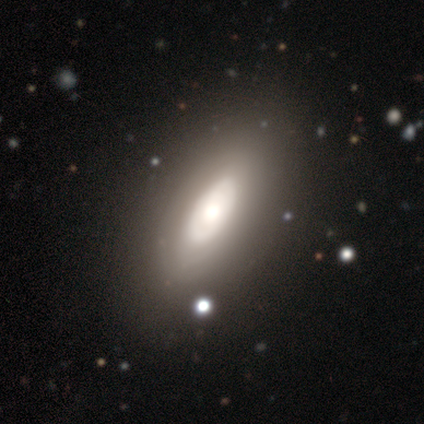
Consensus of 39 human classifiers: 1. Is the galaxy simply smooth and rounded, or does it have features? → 49% featured or disk, 46% smooth, 5% star or artifact.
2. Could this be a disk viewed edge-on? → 84% no, 16% yes.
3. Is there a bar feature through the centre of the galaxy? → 81% no, 12% weak, 6% strong.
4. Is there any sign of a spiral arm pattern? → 81% no, 19% yes.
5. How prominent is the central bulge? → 38% moderate, 31% large, 19% small, 12% dominant, 0% none.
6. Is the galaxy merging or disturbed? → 78% none, 14% minor disturbance, 8% major disturbance, 0% merger.